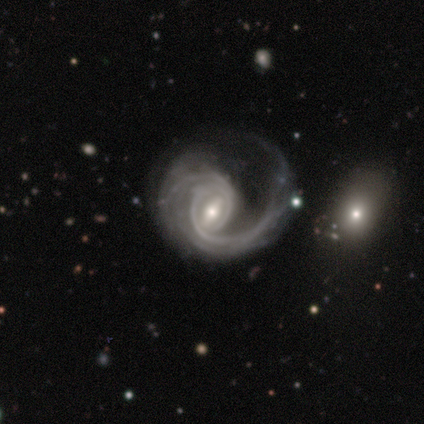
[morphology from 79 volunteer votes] Overall: featured or disk (97%). Edge-on disk: no (96%). Bar: weak (50%; strong 39%). Spiral arms: yes (96%). Spiral arm count: 2 (68%). Spiral winding: medium (44%; tight 37%). Bulge size: moderate (65%; small 28%). Merging: major disturbance (32%; none 12%).